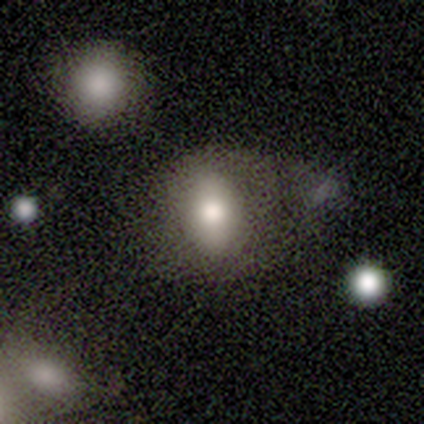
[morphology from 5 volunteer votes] This is likely a smooth galaxy (60%). How rounded: clearly in between (100%). Merging: marginally none (40%, tied with minor disturbance).